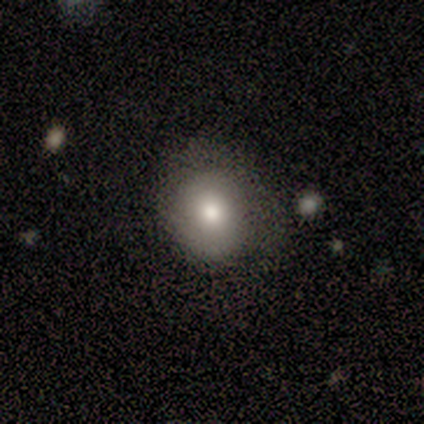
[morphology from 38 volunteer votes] Q: Smooth or featured?
A: smooth (76%); runner-up: featured or disk (18%)
Q: How rounded?
A: round (66%); runner-up: in between (34%)
Q: Merging?
A: none (69%); runner-up: minor disturbance (25%)